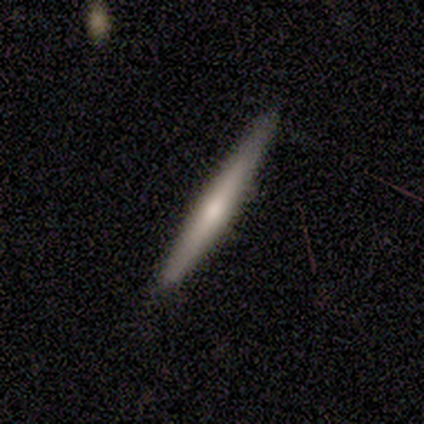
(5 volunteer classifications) Smooth or featured? 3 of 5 (60%) said smooth. How rounded? 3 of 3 (100%) said cigar-shaped. Merging? 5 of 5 (100%) said none.